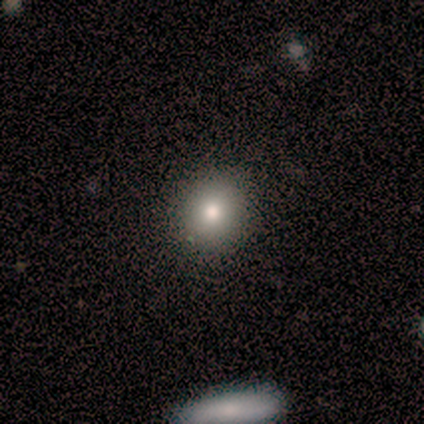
A smooth galaxy with no disk features (60%) that is round (100%). Merging: none (100%).